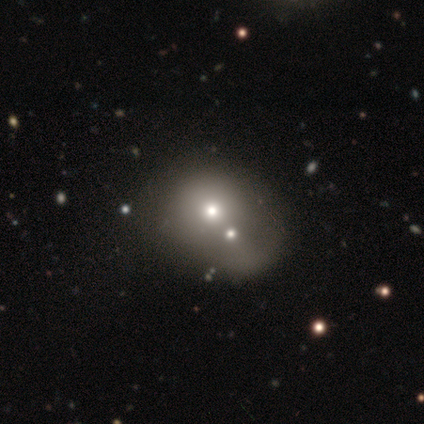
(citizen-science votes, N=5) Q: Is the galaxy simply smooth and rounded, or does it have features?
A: featured or disk — 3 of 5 (60%).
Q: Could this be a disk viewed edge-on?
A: no — 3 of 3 (100%).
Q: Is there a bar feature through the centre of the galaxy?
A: no — 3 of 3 (100%).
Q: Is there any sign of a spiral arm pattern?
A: no — 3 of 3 (100%).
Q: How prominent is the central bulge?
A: moderate — 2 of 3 (67%).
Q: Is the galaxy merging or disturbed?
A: minor disturbance — 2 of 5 (40%, tied with merger).